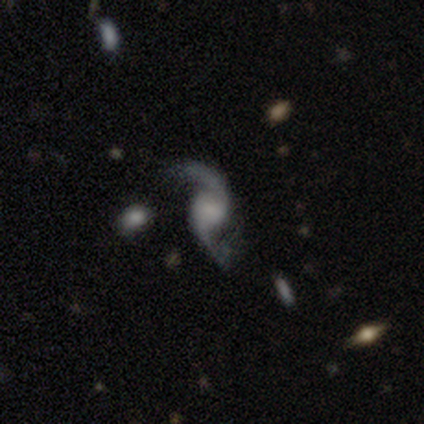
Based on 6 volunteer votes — A featured or disk galaxy (100%) with no bar (50%), 2 (100%) loose (83%) spiral arms (100%) and a small central bulge (50%).

Vote fractions:
- Smooth or featured? featured or disk: 100% / smooth: 0% / star or artifact: 0%
- Edge-on disk? no: 100% / yes: 0%
- Bar? no: 50% / weak: 33% / strong: 17%
- Spiral arms? yes: 100% / no: 0%
- Spiral winding? loose: 83% / tight: 17% / medium: 0%
- Spiral arm count? 2: 100% / 1: 0% / 3: 0% / 4: 0% / more than 4: 0% / can't tell: 0%
- Bulge size? small: 50% / none: 33% / large: 17% / dominant: 0% / moderate: 0%
- Merging? none: 50% (tied) / minor disturbance: 50% (tied) / major disturbance: 0% / merger: 0%